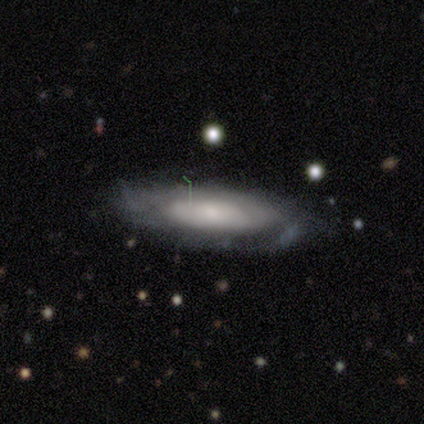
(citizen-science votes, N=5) featured or disk 80%, smooth 20%, star or artifact 0%. Down the decision tree: edge-on disk — no (75%); bar — weak (67%); spiral arms — yes (67%); spiral arm count — 2 (50%, tied with can't tell); spiral winding — tight (50%, tied with medium); bulge size — large (67%); merging — none (40%, tied with minor disturbance).